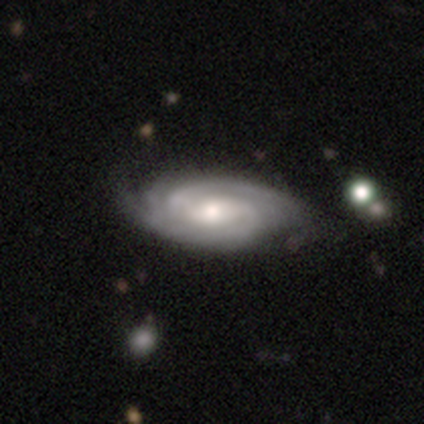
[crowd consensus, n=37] Smooth or featured? featured or disk (84%)
Edge-on disk? no (100%)
Bar? no (52%)
Spiral arms? yes (97%)
Spiral winding? tight (60%)
Spiral arm count? 2 (43%)
Bulge size? moderate (55%)
Merging? none (65%)